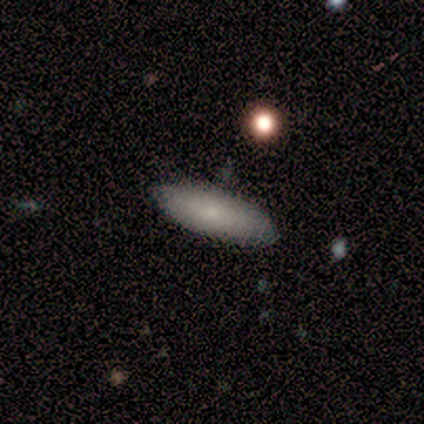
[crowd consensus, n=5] This appears to be a smooth galaxy with no disk features (100%) that is in between round and cigar-shaped (60%). Merging: none (60%).